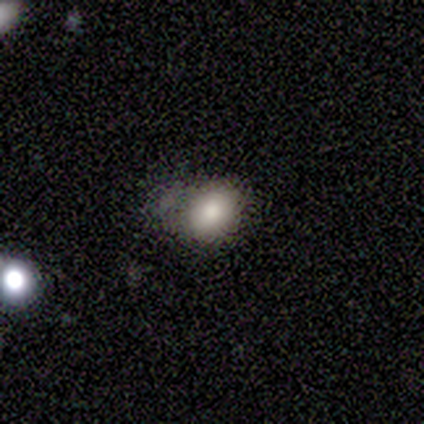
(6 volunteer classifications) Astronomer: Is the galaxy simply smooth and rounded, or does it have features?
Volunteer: smooth — 83%.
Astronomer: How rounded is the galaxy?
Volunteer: in between — 80%.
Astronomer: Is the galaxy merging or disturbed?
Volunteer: minor disturbance — 60% (runner-up: none, 40%).